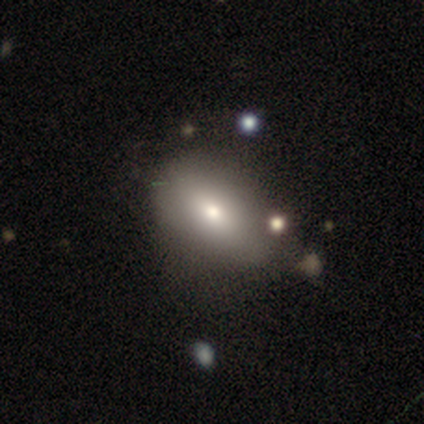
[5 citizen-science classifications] Smooth or featured: smooth — 100%
How rounded: in between — 100%
Merging: none — 60% (major disturbance — 20%)